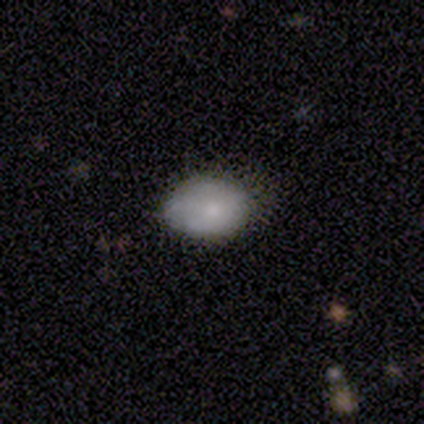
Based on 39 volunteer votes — Q: Smooth or featured?
A: smooth (69%); runner-up: featured or disk (26%)
Q: How rounded?
A: in between (74%); runner-up: round (26%)
Q: Merging?
A: none (73%); runner-up: minor disturbance (22%)